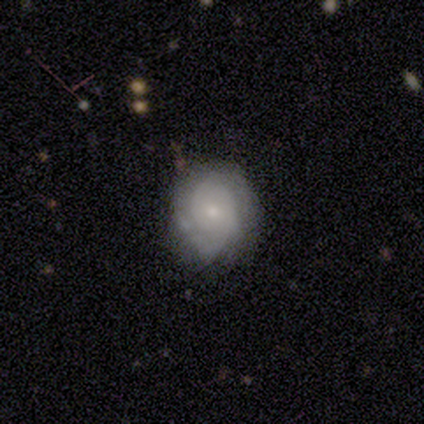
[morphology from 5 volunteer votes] Smooth or featured? 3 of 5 (60%) said featured or disk. Edge-on disk? 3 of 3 (100%) said no. Bar? 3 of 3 (100%) said no. Spiral arms? 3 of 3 (100%) said yes. Spiral winding? 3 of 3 (100%) said tight. Spiral arm count? 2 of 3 (67%) said 2. Bulge size? 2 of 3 (67%) said moderate. Merging? 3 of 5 (60%) said minor disturbance.